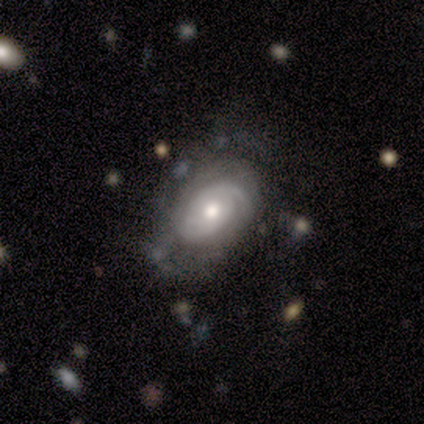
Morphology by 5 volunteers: featured or disk 80%, star or artifact 20%, smooth 0%. Down the decision tree: edge-on disk — no (100%); bar — no (100%); spiral arms — yes (75%); spiral arm count — 1 (67%); spiral winding — tight (67%); bulge size — moderate (75%); merging — none (50%, tied with minor disturbance).